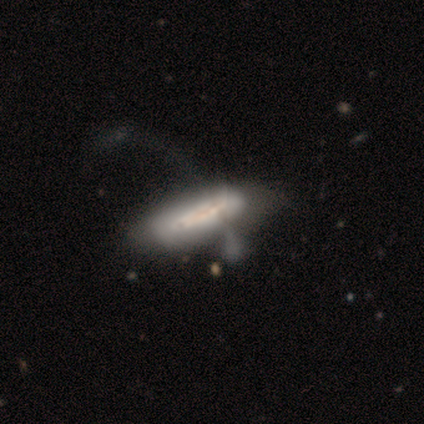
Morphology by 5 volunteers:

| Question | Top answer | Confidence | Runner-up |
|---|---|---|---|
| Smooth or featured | featured or disk | 60% | smooth (40%) |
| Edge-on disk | no | 67% | yes (33%) |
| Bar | weak | 50% | tied: no (50%) |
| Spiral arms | yes | 100% | — |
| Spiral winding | tight | 50% | tied: medium (50%) |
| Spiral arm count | more than 4 | 50% | tied: can't tell (50%) |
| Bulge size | moderate | 50% | tied: none (50%) |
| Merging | none | 40% | tied: major disturbance (40%) |